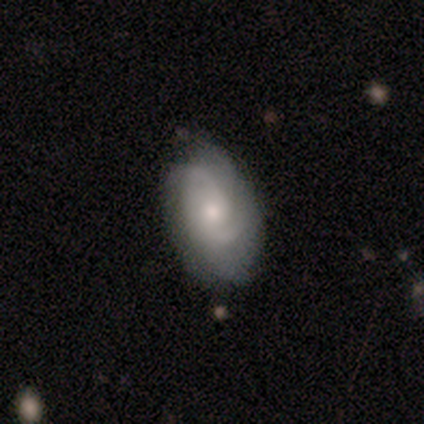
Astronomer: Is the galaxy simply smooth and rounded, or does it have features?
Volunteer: featured or disk — 100%.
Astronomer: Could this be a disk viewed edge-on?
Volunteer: no — 100%.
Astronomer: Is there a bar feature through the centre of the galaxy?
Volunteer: no — 100%.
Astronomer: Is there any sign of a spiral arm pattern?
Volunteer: yes — 75%.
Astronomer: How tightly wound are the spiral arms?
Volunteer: medium — 67%.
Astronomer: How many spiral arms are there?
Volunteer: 2 — 67%.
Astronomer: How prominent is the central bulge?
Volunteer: moderate — 75%.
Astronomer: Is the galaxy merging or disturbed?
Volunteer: minor disturbance — 75%.